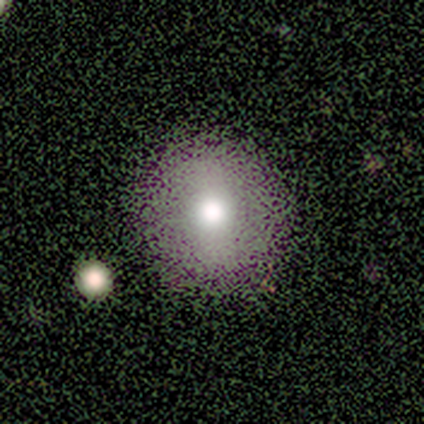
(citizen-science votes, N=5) smooth-or-featured: smooth: 40% (tied) | featured or disk: 40% (tied) | star or artifact: 20%
  how-rounded: round: 100% | in between: 0% | cigar-shaped: 0%
  merging: none: 75% | major disturbance: 25% | minor disturbance: 0% | merger: 0%